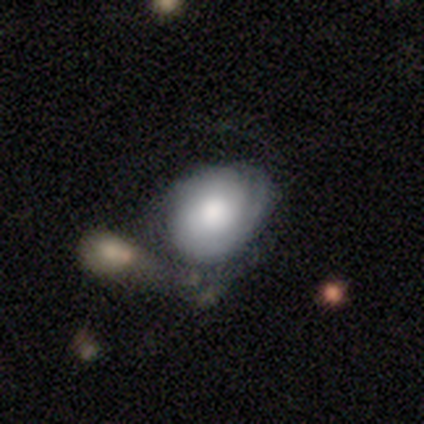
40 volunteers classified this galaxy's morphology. Overall: featured or disk (50%; smooth 42%). Edge-on disk: no (90%). Bar: no (78%). Spiral arms: yes (56%; no 44%). Spiral arm count: 1 (50%; 2 20%). Spiral winding: tight (60%; medium 20%). Bulge size: large (67%). Merging: none (35%; merger 27%).